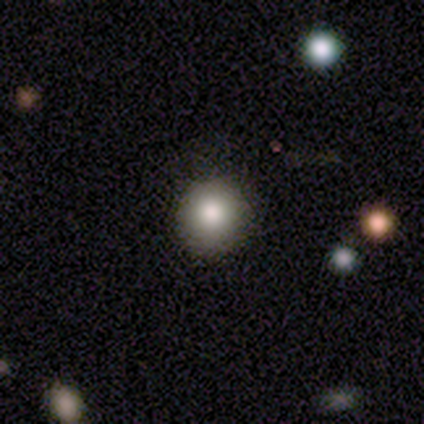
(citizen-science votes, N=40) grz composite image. It shows a smooth galaxy with no disk features (85%) that is round (88%). Merging: none (92%).